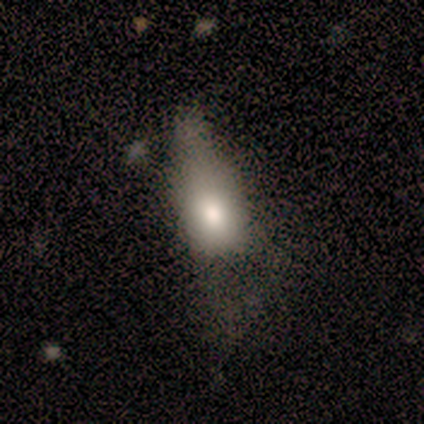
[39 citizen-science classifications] Morphology: type=smooth (72%); roundness=in between (79%); merging=major disturbance (44%).